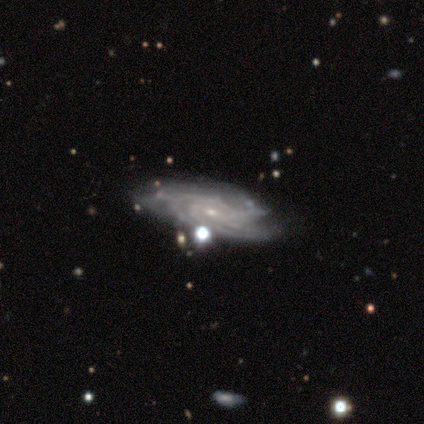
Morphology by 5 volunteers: Smooth or featured? featured or disk (100%)
Edge-on disk? no (100%)
Bar? no (60%)
Spiral arms? yes (100%)
Spiral winding? tight (100%)
Spiral arm count? can't tell (40%)
Bulge size? small (80%)
Merging? none (80%)